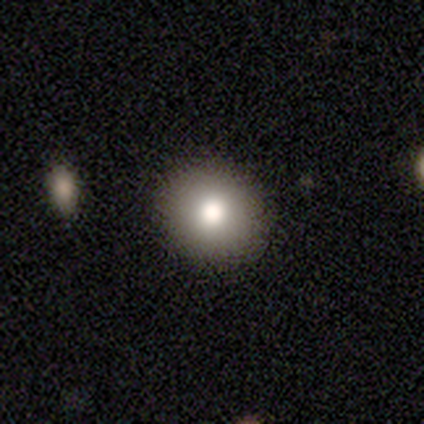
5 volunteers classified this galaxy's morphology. Smooth or featured: featured or disk — 60% (smooth — 40%)
Edge-on disk: no — 67% (yes — 33%)
Bar: no — 100%
Spiral arms: no — 100%
Bulge size: large — 50% (tied with moderate — 50%)
Merging: none — 80% (merger — 20%)